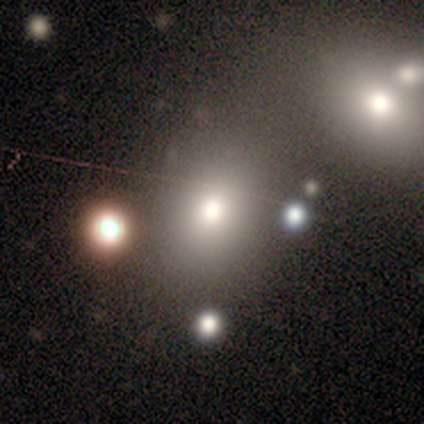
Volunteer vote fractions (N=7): Q: Smooth or featured?
A: smooth (86%); runner-up: featured or disk (14%)
Q: How rounded?
A: round (67%); runner-up: in between (33%)
Q: Merging?
A: none (71%); runner-up: major disturbance (29%)